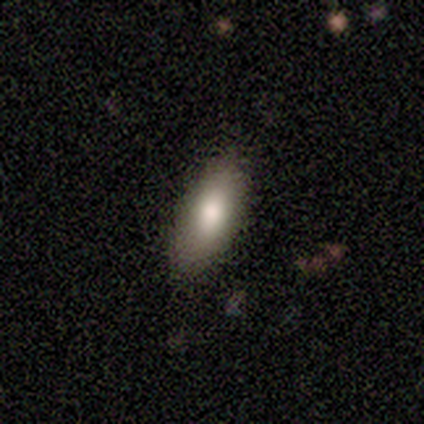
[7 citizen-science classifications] Smooth or featured?
  - smooth: 86% *
  - star or artifact: 14%
  - featured or disk: 0%
How rounded?
  - in between: 100% *
  - round: 0%
  - cigar-shaped: 0%
Merging?
  - none: 100% *
  - minor disturbance: 0%
  - major disturbance: 0%
  - merger: 0%